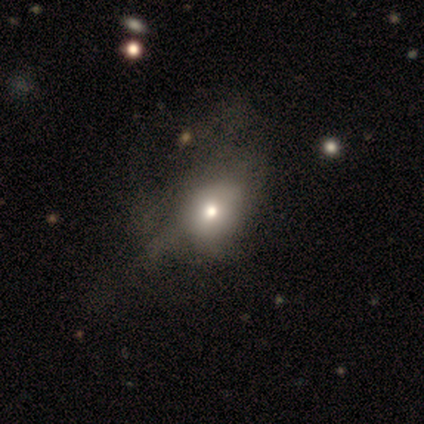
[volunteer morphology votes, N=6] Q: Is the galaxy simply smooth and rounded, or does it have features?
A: smooth — 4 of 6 (67%).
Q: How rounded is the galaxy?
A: in between — 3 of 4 (75%).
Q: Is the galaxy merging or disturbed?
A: minor disturbance — 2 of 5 (40%, tied with major disturbance).